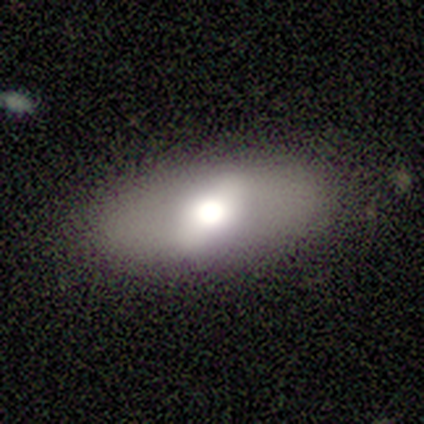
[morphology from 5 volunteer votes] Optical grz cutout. It shows a featured or disk galaxy (100%) with a weak bar (75%), no spiral arms (100%) and a moderate central bulge (75%). Merging: none (100%).